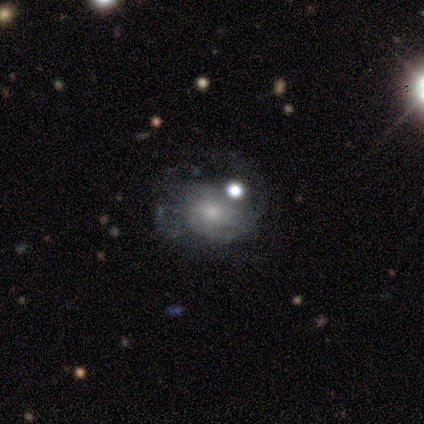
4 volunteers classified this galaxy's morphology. Smooth or featured? 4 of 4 (100%) said featured or disk. Edge-on disk? 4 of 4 (100%) said no. Bar? 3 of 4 (75%) said weak. Spiral arms? 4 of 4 (100%) said yes. Spiral winding? 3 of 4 (75%) said medium. Spiral arm count? 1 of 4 (25%, tied with 2, 4 and can't tell) said 1. Bulge size? 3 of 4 (75%) said moderate. Merging? 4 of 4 (100%) said none.